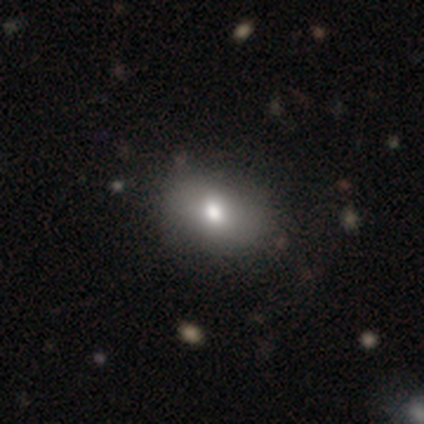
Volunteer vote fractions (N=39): smooth 62%, featured or disk 26%, star or artifact 13%. Down the decision tree: how rounded — in between (67%); merging — none (85%).